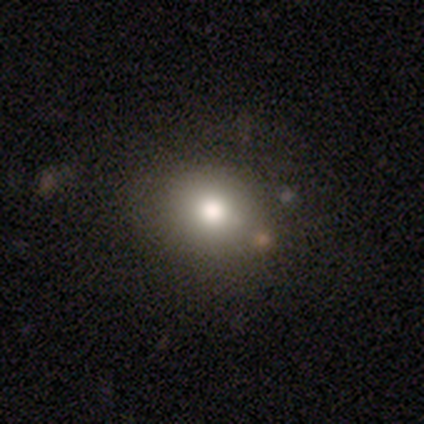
This appears to be a smooth galaxy with no disk features (80%) that is round (100%). Merging: none (80%).